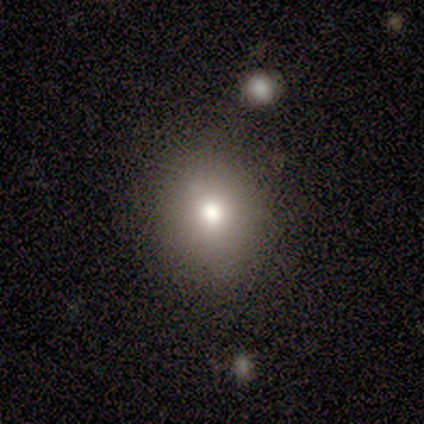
smooth 80%, featured or disk 20%, star or artifact 0%. Down the decision tree: how rounded — round (75%); merging — none (80%).